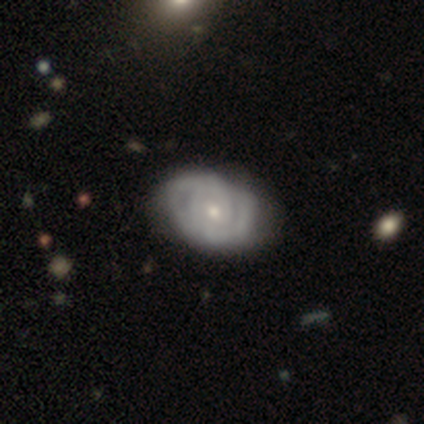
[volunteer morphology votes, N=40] This is clearly a featured or disk galaxy (80%). It is clearly not viewed edge-on (100%). Bar: likely no (78%). Spiral arm pattern: clearly yes (91%). Spiral arm count: marginally can't tell (45%). Spiral winding: likely tight (69%). Central bulge: possibly small (47%). Merging: possibly none (51%).